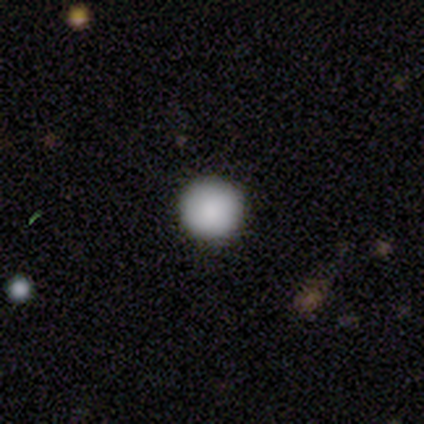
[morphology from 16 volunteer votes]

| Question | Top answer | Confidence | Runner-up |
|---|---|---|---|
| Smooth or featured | smooth | 94% | star or artifact (6%) |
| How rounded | round | 100% | — |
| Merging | none | 93% | minor disturbance (7%) |